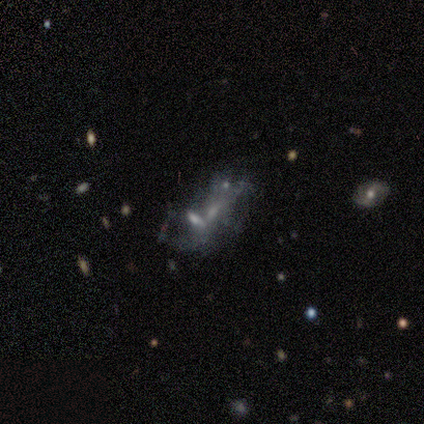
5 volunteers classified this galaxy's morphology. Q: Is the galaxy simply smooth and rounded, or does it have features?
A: featured or disk — 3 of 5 (60%).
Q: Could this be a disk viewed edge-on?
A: no — 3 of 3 (100%).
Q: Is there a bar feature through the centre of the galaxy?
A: no — 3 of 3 (100%).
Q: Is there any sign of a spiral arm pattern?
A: no — 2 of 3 (67%).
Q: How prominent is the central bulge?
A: none — 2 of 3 (67%).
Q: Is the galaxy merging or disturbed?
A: merger — 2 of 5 (40%).